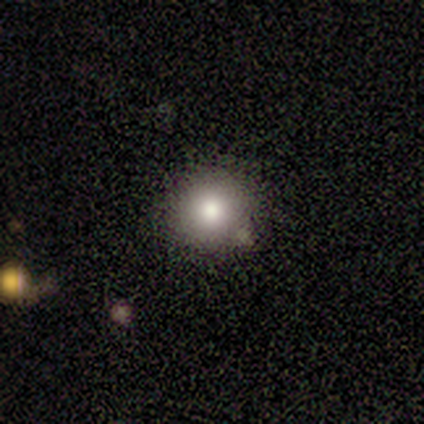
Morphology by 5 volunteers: Smooth or featured? 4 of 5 (80%) said smooth. How rounded? 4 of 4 (100%) said round. Merging? 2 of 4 (50%, tied with minor disturbance) said none.